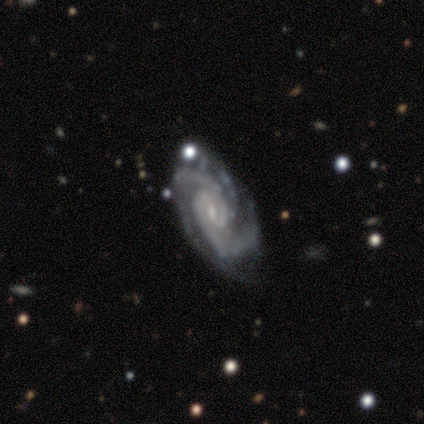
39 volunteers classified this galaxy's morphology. Smooth or featured: featured or disk — 95% (star or artifact — 5%)
Edge-on disk: no — 95% (yes — 5%)
Bar: weak — 57% (no — 34%)
Spiral arms: yes — 97% (no — 3%)
Spiral winding: tight — 68% (medium — 29%)
Spiral arm count: 3 — 56% (2 — 32%)
Bulge size: small — 80% (none — 14%)
Merging: none — 59% (minor disturbance — 30%)